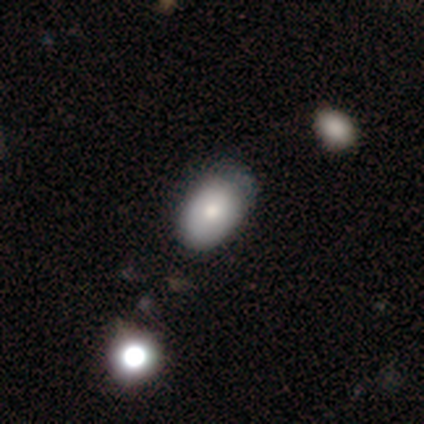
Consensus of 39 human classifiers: Smooth or featured: smooth — 74% (featured or disk — 18%)
How rounded: in between — 97% (round — 3%)
Merging: none — 39% (minor disturbance — 17%)